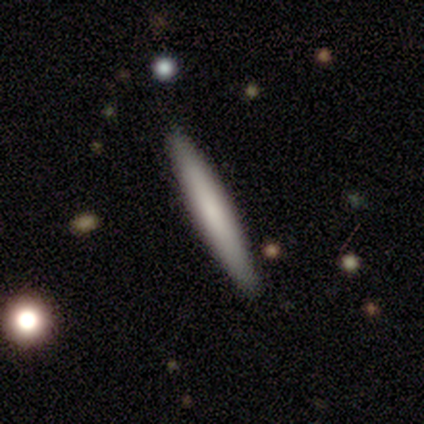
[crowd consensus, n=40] A smooth galaxy with no disk features (65%) that is cigar-shaped (96%).

Vote fractions:
- Smooth or featured? smooth: 65% / featured or disk: 30% / star or artifact: 5%
- How rounded? cigar-shaped: 96% / in between: 4% / round: 0%
- Merging? none: 95% / minor disturbance: 3% / merger: 3% / major disturbance: 0%